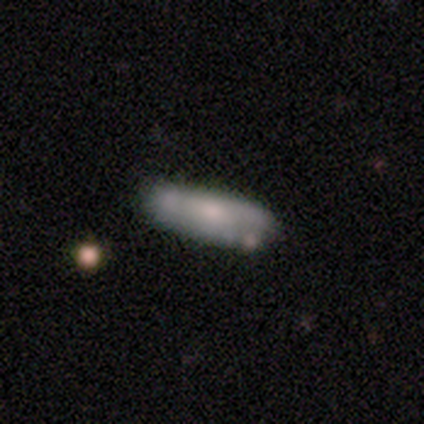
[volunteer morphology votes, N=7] smooth_or_featured: smooth (p=0.71) [alt: featured or disk p=0.29]
how_rounded: cigar-shaped (p=0.60) [alt: in between p=0.40]
merging: none (p=0.71) [alt: major disturbance p=0.14]